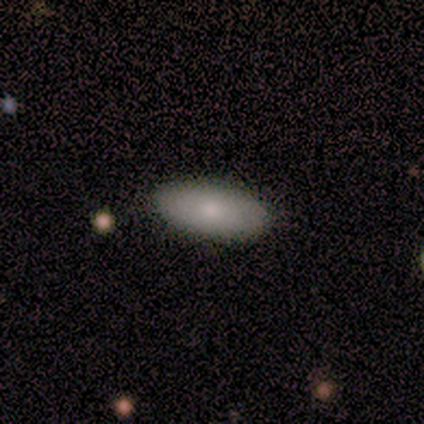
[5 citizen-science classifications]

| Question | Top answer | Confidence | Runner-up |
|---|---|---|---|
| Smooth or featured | smooth | 80% | featured or disk (20%) |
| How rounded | in between | 100% | — |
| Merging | none | 100% | — |